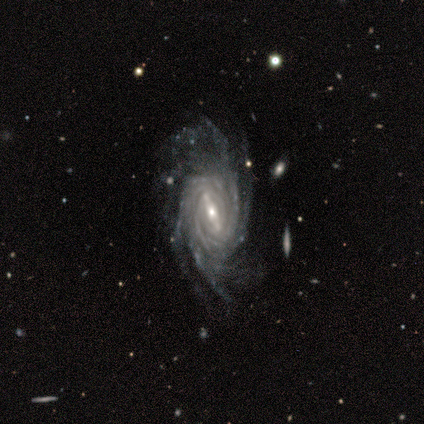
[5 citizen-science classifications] Smooth or featured? 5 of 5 (100%) said featured or disk. Edge-on disk? 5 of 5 (100%) said no. Bar? 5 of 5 (100%) said strong. Spiral arms? 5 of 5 (100%) said yes. Spiral winding? 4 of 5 (80%) said tight. Spiral arm count? 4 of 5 (80%) said more than 4. Bulge size? 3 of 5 (60%) said small. Merging? 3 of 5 (60%) said none.